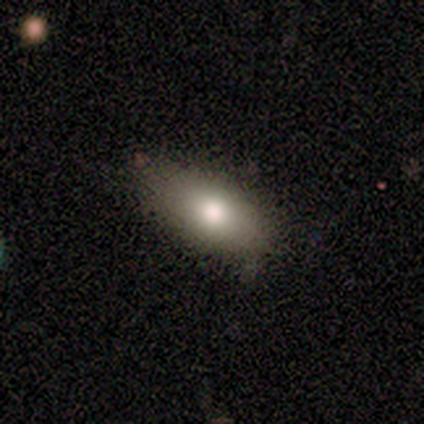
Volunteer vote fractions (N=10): Volunteers were most divided on "merging": none: 80%, minor disturbance: 20%, major disturbance: 0%, merger: 0%. More confident: smooth or featured — smooth (90%); how rounded — in between (78%).